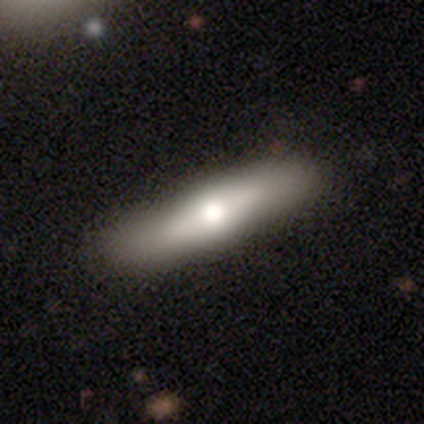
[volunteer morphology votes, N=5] This appears to be a featured or disk galaxy (60%) viewed edge-on (100%) with a rounded central bulge (100%). Merging: none (80%).